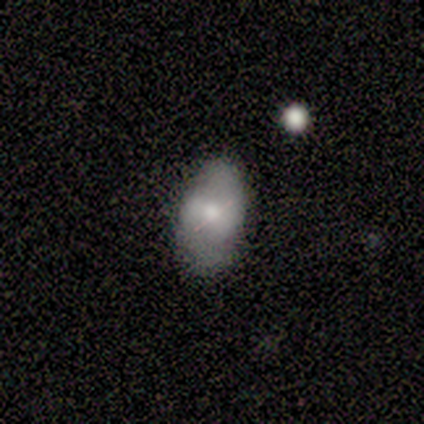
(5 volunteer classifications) Morphology: type=smooth (40%, tied with featured or disk); roundness=in between (100%); merging=none (100%).